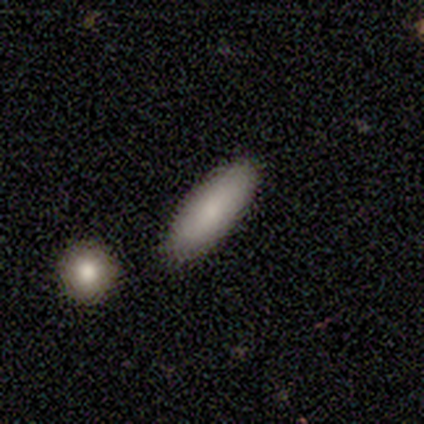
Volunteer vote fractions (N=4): A star or artifact, not a galaxy (75%).

Vote fractions:
- Smooth or featured? star or artifact: 75% / smooth: 25% / featured or disk: 0%